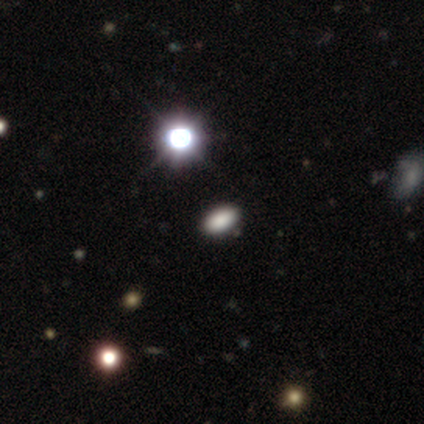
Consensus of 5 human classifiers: Smooth or featured? smooth (60%)
How rounded? in between (67%)
Merging? none (75%)